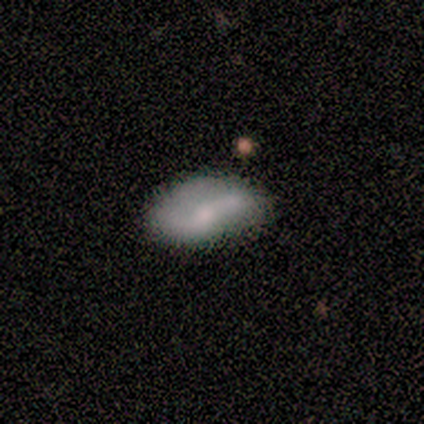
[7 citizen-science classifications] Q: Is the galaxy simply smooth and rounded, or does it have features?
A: featured or disk — 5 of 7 (71%).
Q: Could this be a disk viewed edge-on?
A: no — 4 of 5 (80%).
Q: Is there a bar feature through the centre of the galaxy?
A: no — 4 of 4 (100%).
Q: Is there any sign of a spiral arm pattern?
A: yes — 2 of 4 (50%, tied with no).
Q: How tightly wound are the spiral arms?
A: tight — 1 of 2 (50%, tied with loose).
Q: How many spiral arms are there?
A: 2 — 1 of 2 (50%, tied with can't tell).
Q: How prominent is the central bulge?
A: small — 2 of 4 (50%).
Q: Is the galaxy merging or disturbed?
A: none — 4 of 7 (57%).